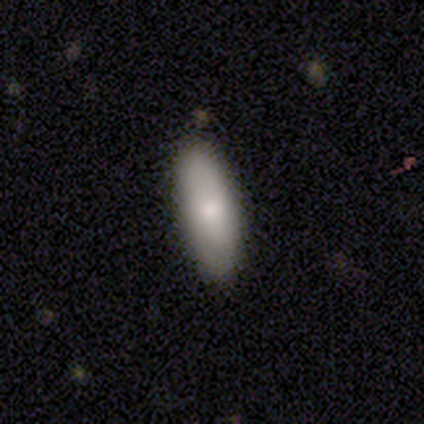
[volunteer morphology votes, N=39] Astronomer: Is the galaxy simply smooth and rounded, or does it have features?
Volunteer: smooth — 77%.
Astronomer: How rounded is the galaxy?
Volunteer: in between — 70%.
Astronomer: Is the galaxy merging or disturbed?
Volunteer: none — 72%.